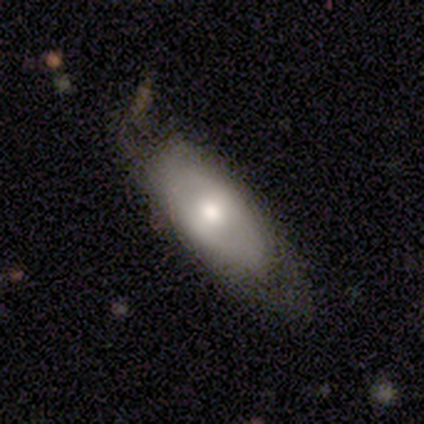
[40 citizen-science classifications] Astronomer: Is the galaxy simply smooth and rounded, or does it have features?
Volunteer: smooth — 55% (runner-up: featured or disk, 35%).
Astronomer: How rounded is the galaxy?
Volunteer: in between — 91%.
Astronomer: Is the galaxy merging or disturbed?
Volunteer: minor disturbance — 50% (runner-up: none, 36%).